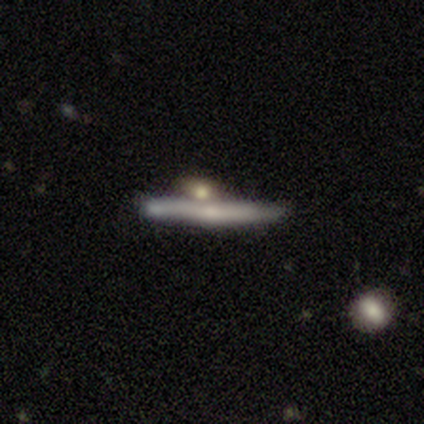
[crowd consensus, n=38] Smooth or featured: featured or disk — 61% (smooth — 34%)
Edge-on disk: yes — 96% (no — 4%)
Edge-on bulge: none — 55% (rounded — 41%)
Merging: none — 53% (minor disturbance — 31%)